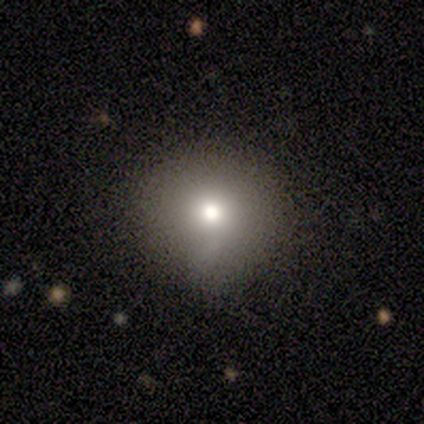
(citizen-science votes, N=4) Smooth or featured?
  - smooth: 100% *
  - featured or disk: 0%
  - star or artifact: 0%
How rounded?
  - round: 100% *
  - in between: 0%
  - cigar-shaped: 0%
Merging?
  - none: 75% *
  - minor disturbance: 25%
  - major disturbance: 0%
  - merger: 0%